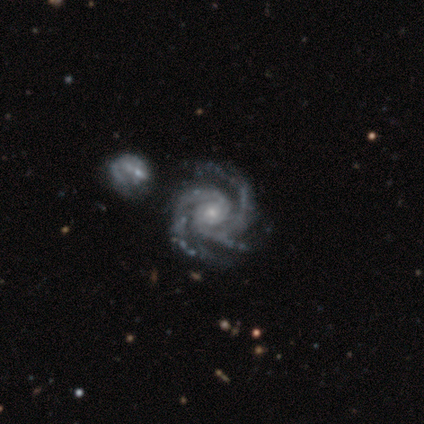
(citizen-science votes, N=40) featured or disk 98%, smooth 2%, star or artifact 0%. Down the decision tree: edge-on disk — no (97%); bar — no (71%); spiral arms — yes (100%); spiral arm count — 3 (79%); spiral winding — tight (68%); bulge size — small (76%); merging — none (45%).